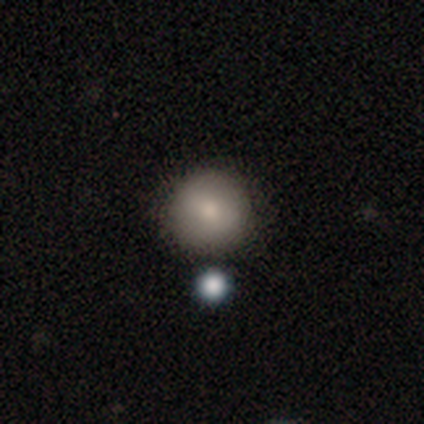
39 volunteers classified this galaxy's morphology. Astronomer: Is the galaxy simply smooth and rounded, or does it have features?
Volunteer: smooth — 79%.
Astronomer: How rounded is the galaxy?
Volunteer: round — 90%.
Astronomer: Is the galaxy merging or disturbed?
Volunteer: none — 70%.